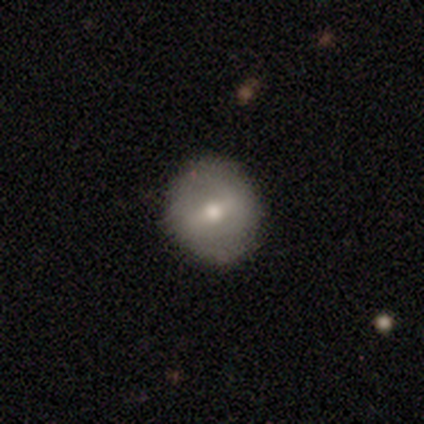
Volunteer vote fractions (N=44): smooth_or_featured: smooth (p=0.48) [alt: featured or disk p=0.41]
how_rounded: round (p=0.81) [alt: in between p=0.19]
merging: none (p=0.85) [alt: minor disturbance p=0.08]